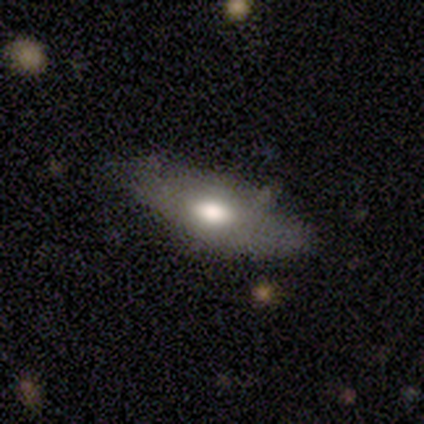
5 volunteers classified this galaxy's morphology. Q: Smooth or featured?
A: smooth (60%); runner-up: featured or disk (40%)
Q: How rounded?
A: in between (67%); runner-up: cigar-shaped (33%)
Q: Merging?
A: none (60%); runner-up: minor disturbance (40%)